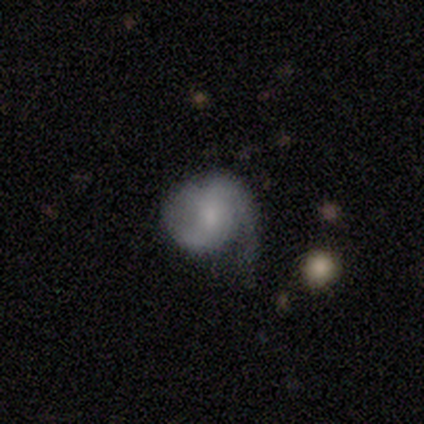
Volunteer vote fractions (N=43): Smooth or featured? featured or disk (49%)
Edge-on disk? no (100%)
Bar? no (67%)
Spiral arms? yes (90%)
Spiral winding? medium (47%)
Spiral arm count? 2 (58%)
Bulge size? moderate (43%)
Merging? minor disturbance (45%)